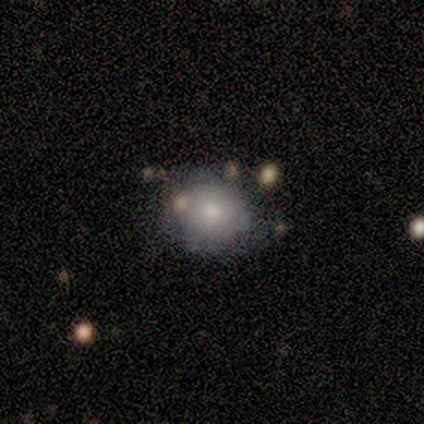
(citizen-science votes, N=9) Morphology: type=smooth (56%); roundness=round (100%); merging=none (50%).